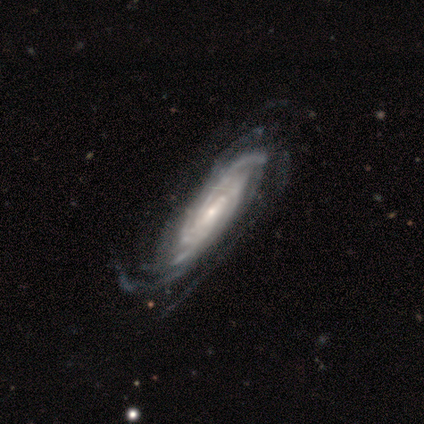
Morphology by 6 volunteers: smooth_or_featured: featured or disk (p=1.00)
disk_edge_on: no (p=1.00)
bar: no (p=0.50) [alt: strong p=0.33]
has_spiral_arms: yes (p=1.00)
spiral_winding: tight (p=0.67) [alt: medium p=0.33]
spiral_arm_count: can't tell (p=0.67) [alt: 3 p=0.33]
bulge_size: small (p=1.00)
merging: none (p=0.50) [alt: major disturbance p=0.33]